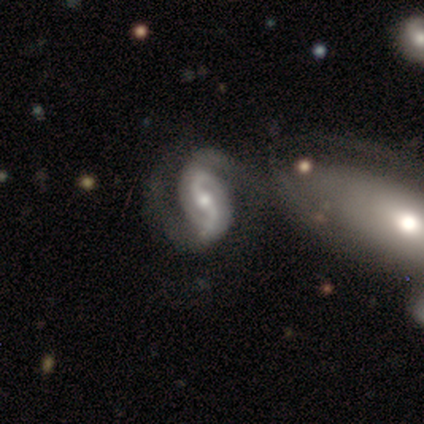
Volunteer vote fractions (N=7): Smooth or featured: featured or disk — 100%
Edge-on disk: no — 86% (yes — 14%)
Bar: strong — 50% (weak — 33%)
Spiral arms: yes — 83% (no — 17%)
Spiral winding: loose — 60% (medium — 40%)
Spiral arm count: 2 — 100%
Bulge size: moderate — 67% (large — 17%)
Merging: none — 43% (merger — 29%)